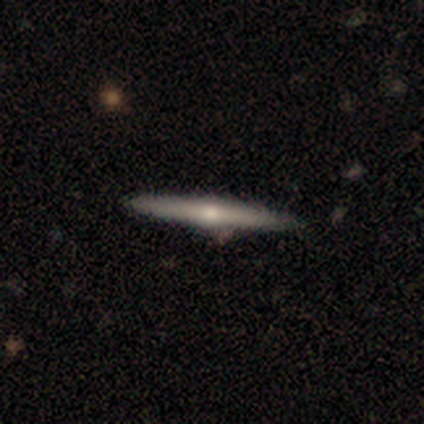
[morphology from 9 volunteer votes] Q: Smooth or featured?
A: featured or disk (89%); runner-up: smooth (11%)
Q: Edge-on disk?
A: yes (100%)
Q: Edge-on bulge?
A: rounded (88%); runner-up: none (12%)
Q: Merging?
A: none (100%)